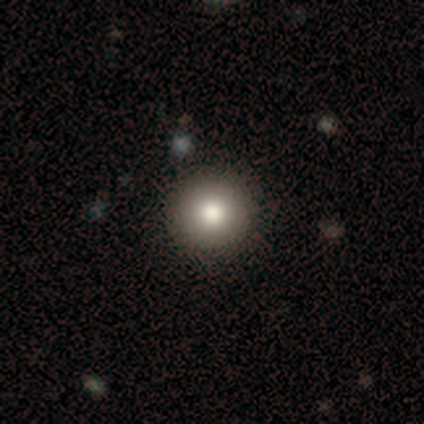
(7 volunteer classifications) A smooth galaxy with no disk features (71%) that is round (100%). Merging: none (83%).